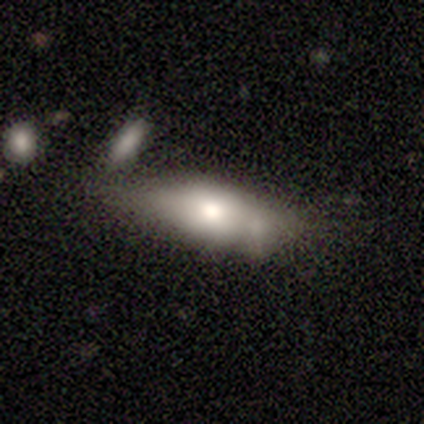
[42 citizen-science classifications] smooth-or-featured: smooth: 52% | featured or disk: 45% | star or artifact: 2%
  how-rounded: in between: 77% | cigar-shaped: 23% | round: 0%
  merging: minor disturbance: 32% | none: 27% | merger: 27% | major disturbance: 15%